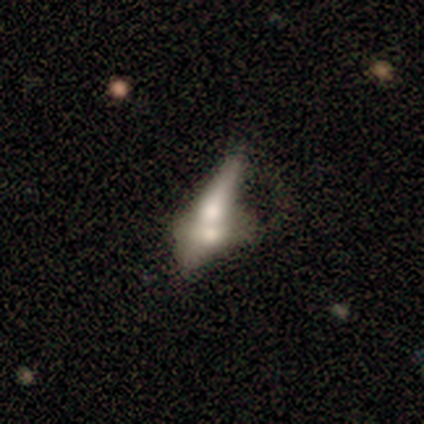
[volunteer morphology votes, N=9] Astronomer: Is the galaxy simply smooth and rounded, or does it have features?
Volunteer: smooth — 56% (runner-up: featured or disk, 33%).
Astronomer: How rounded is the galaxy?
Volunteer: in between — 40%, tied with cigar-shaped at 40%.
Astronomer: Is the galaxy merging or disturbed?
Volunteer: merger — 75%.